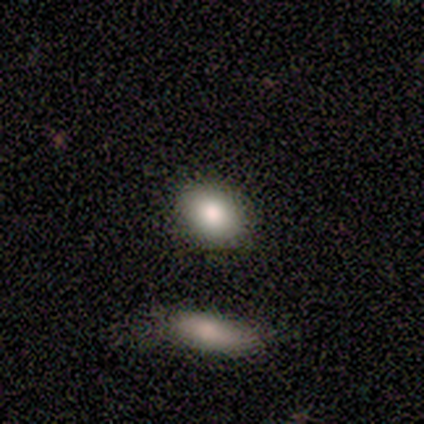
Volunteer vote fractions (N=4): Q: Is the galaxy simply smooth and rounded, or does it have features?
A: smooth — 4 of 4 (100%).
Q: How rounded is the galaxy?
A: round — 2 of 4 (50%, tied with in between).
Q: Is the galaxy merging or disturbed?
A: none — 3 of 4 (75%).